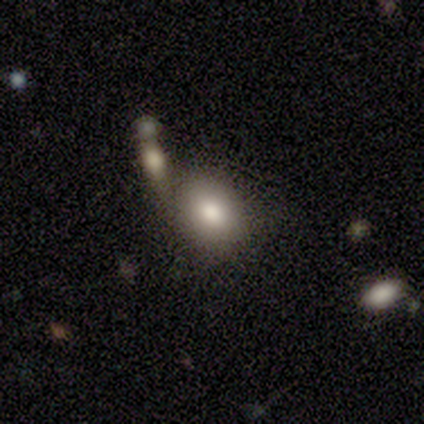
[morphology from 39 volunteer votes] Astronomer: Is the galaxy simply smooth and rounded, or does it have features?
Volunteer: smooth — 77%.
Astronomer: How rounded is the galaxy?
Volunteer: round — 50%, tied with in between at 50%.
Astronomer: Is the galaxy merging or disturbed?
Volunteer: none — 53% (runner-up: merger, 31%).